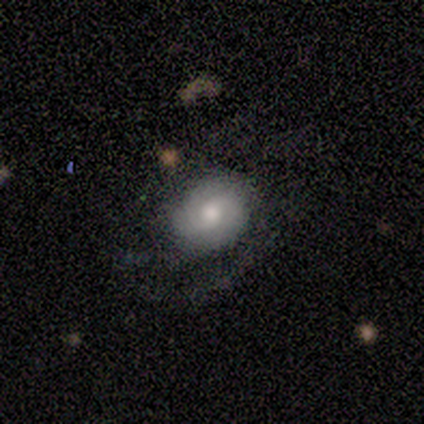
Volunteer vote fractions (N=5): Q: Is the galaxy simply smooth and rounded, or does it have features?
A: featured or disk — 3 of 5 (60%).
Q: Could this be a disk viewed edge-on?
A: no — 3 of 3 (100%).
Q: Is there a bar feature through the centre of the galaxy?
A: weak — 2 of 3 (67%).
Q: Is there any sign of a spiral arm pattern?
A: no — 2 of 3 (67%).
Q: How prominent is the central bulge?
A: moderate — 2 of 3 (67%).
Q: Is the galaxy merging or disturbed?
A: none — 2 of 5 (40%, tied with minor disturbance).